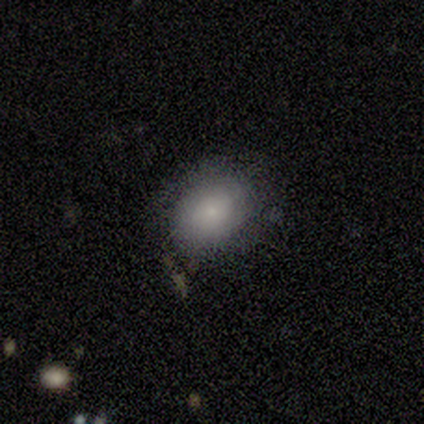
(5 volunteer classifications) Smooth or featured: smooth — 100%
How rounded: round — 60% (in between — 40%)
Merging: none — 60% (minor disturbance — 40%)